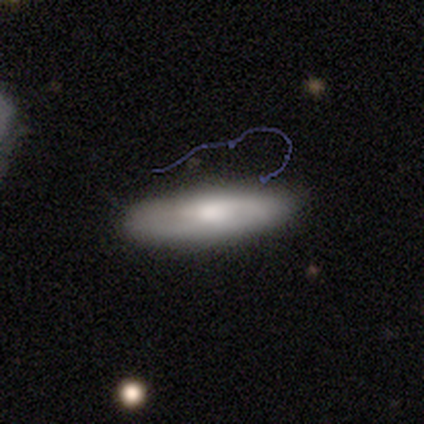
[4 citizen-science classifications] Overall: smooth (50%, tied with featured or disk). How rounded: cigar-shaped (100%). Merging: none (100%).